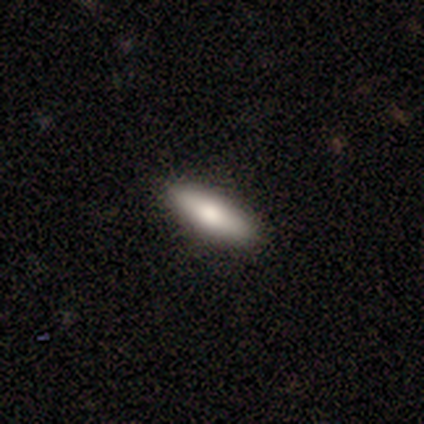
Q: Smooth or featured?
A: smooth (65%); runner-up: featured or disk (28%)
Q: How rounded?
A: cigar-shaped (54%); runner-up: in between (46%)
Q: Merging?
A: none (95%); runner-up: major disturbance (5%)